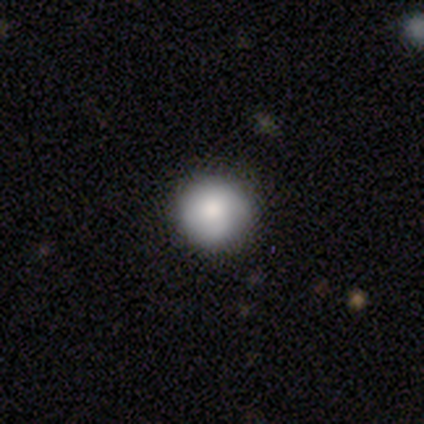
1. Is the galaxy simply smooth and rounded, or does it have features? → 100% smooth, 0% featured or disk, 0% star or artifact.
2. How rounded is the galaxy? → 100% round, 0% in between, 0% cigar-shaped.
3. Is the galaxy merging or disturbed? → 80% minor disturbance, 20% none, 0% major disturbance, 0% merger.